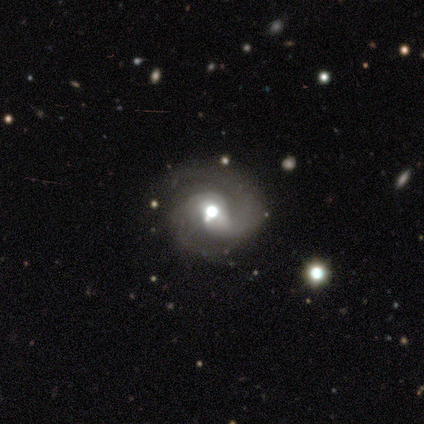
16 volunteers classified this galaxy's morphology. Q: Smooth or featured?
A: featured or disk (94%); runner-up: smooth (6%)
Q: Edge-on disk?
A: no (100%)
Q: Bar?
A: no (73%); runner-up: weak (27%)
Q: Spiral arms?
A: yes (93%); runner-up: no (7%)
Q: Spiral winding?
A: medium (64%); runner-up: tight (36%)
Q: Spiral arm count?
A: 2 (86%); runner-up: 1 (14%)
Q: Bulge size?
A: moderate (80%); runner-up: large (13%)
Q: Merging?
A: none (75%); runner-up: minor disturbance (12%)